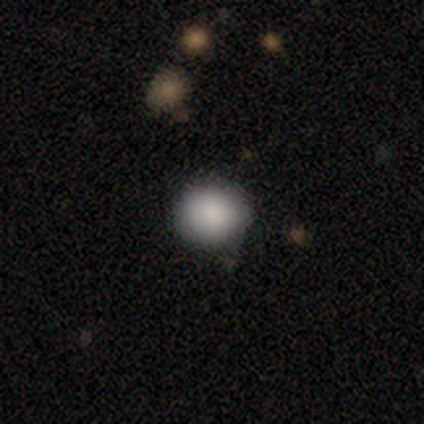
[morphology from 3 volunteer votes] Smooth or featured? 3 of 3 (100%) said smooth. How rounded? 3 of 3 (100%) said round. Merging? 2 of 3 (67%) said none.